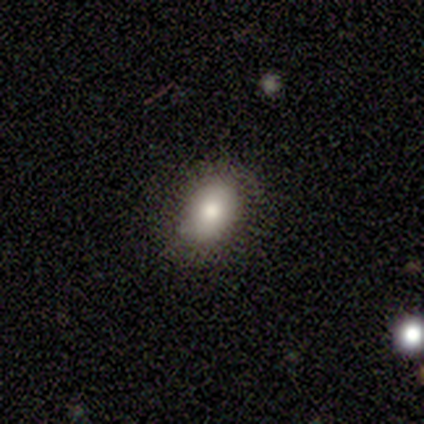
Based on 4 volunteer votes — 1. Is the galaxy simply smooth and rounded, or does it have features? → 50% smooth (tied), 50% featured or disk (tied), 0% star or artifact.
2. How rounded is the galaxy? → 100% in between, 0% round, 0% cigar-shaped.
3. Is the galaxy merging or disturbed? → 100% none, 0% minor disturbance, 0% major disturbance, 0% merger.